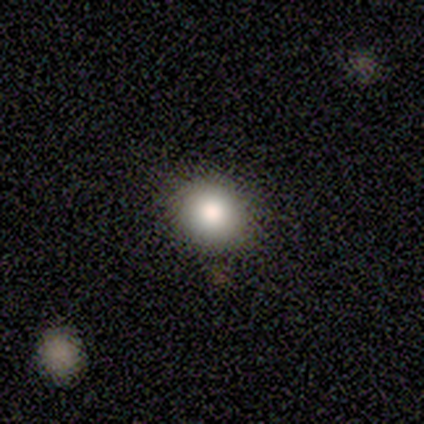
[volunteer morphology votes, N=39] Overall: smooth (85%). How rounded: round (85%). Merging: none (59%).